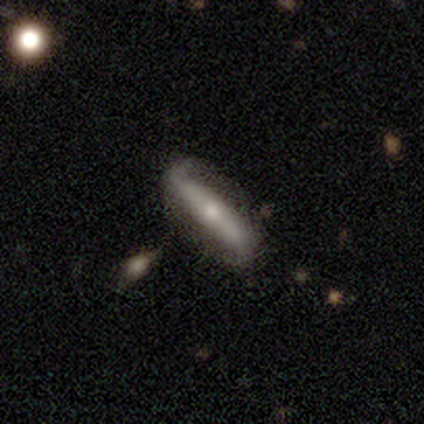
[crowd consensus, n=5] Volunteers were most divided on "merging": none: 60%, major disturbance: 40%, minor disturbance: 0%, merger: 0%. More confident: spiral arms — yes (100%); spiral winding — loose (100%); smooth or featured — featured or disk (80%); edge-on disk — no (75%); bar — strong (67%); spiral arm count — 2 (67%); bulge size — small (67%).